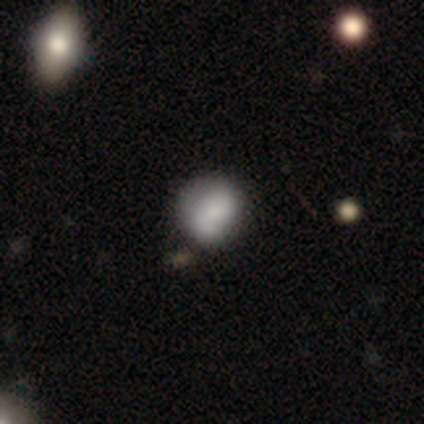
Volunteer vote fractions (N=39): smooth 59%, featured or disk 38%, star or artifact 3%. Down the decision tree: how rounded — round (83%); merging — none (50%).